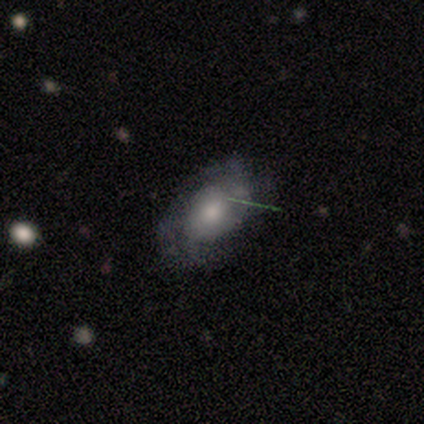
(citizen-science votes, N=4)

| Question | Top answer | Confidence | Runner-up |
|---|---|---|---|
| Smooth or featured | smooth | 50% | tied: featured or disk (50%) |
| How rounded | round | 50% | tied: in between (50%) |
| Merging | minor disturbance | 50% | none (25%) |